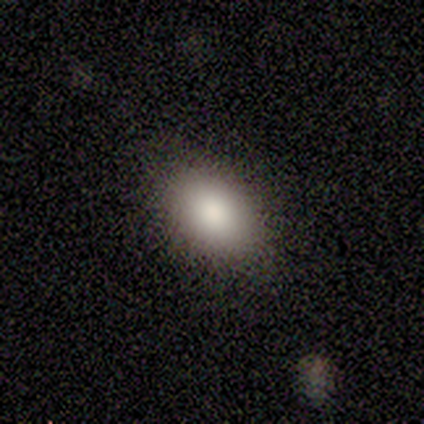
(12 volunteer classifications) Smooth or featured? 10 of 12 (83%) said smooth. How rounded? 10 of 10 (100%) said in between. Merging? 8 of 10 (80%) said none.